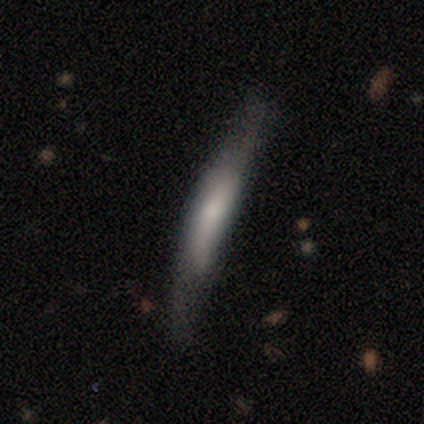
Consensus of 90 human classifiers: smooth 54%, featured or disk 40%, star or artifact 6%. Down the decision tree: how rounded — cigar-shaped (98%); merging — none (66%).